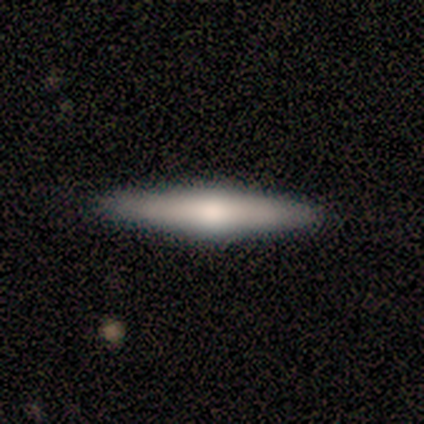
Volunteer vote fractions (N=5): A featured or disk galaxy (60%) viewed edge-on (100%) with a rounded central bulge (100%). Merging: none (100%).